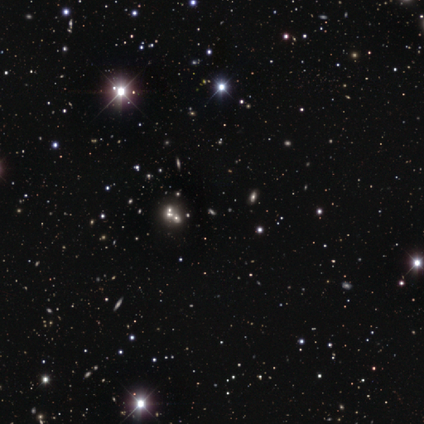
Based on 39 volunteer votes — This appears to be a star or artifact, not a galaxy (62%).